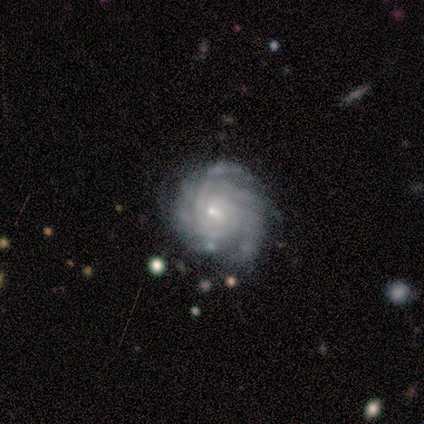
This appears to be a featured or disk galaxy (100%) with no bar (80%), 3 (25%, tied with 4, more than 4 and can't tell) tight (100%) spiral arms (80%) and a small central bulge (80%). Merging: none (80%).